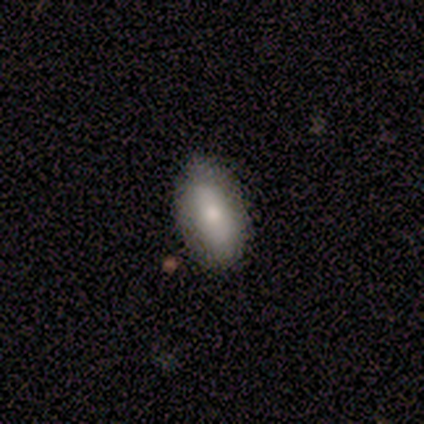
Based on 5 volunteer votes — A smooth galaxy with no disk features (100%) that is in between round and cigar-shaped (100%).

Vote fractions:
- Smooth or featured? smooth: 100% / featured or disk: 0% / star or artifact: 0%
- How rounded? in between: 100% / round: 0% / cigar-shaped: 0%
- Merging? none: 80% / minor disturbance: 20% / major disturbance: 0% / merger: 0%